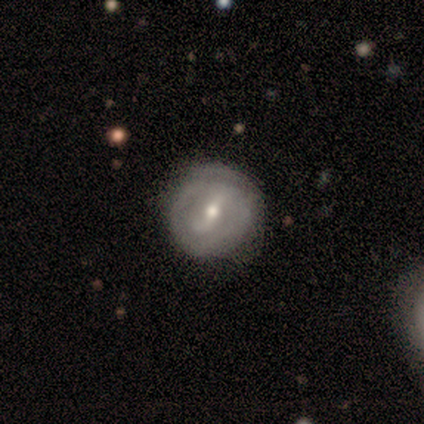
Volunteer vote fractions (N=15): Morphology: type=featured or disk (73%); edge-on=no (100%); bar=strong (45%, tied with weak); spiral arms=yes (55%); winding=tight (100%); arm count=2 (83%); bulge=small (55%); merging=none (79%).